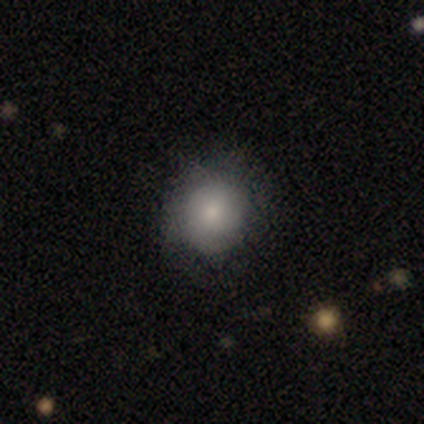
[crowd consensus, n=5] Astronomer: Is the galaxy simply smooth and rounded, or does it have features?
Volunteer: smooth — 80%.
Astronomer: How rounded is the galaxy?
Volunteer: round — 100%.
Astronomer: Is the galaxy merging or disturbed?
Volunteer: none — 60% (runner-up: minor disturbance, 40%).